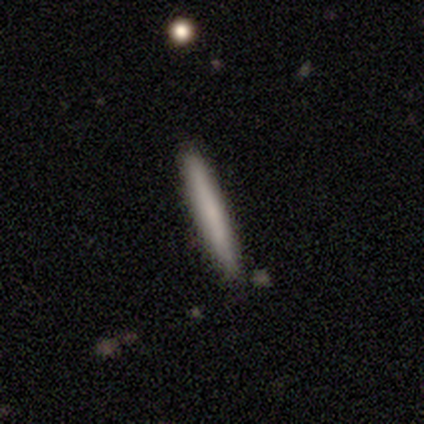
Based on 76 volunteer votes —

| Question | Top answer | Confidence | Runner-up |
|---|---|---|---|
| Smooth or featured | smooth | 72% | featured or disk (26%) |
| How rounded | cigar-shaped | 98% | in between (2%) |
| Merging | none | 48% | minor disturbance (4%) |